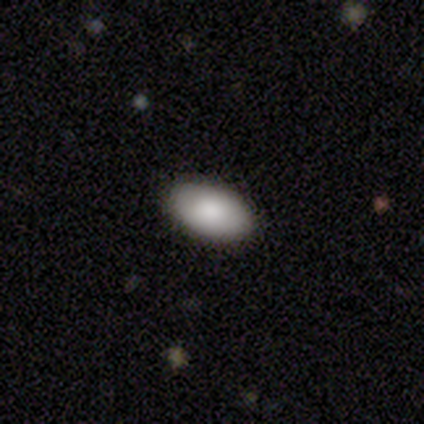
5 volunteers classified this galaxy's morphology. This is clearly a smooth galaxy (100%). How rounded: clearly in between (100%). Merging: clearly none (80%).